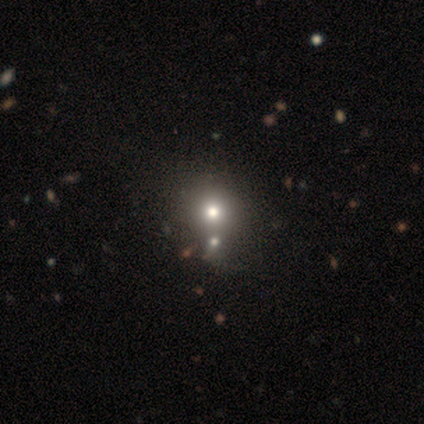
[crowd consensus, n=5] Morphology: type=star or artifact (60%).